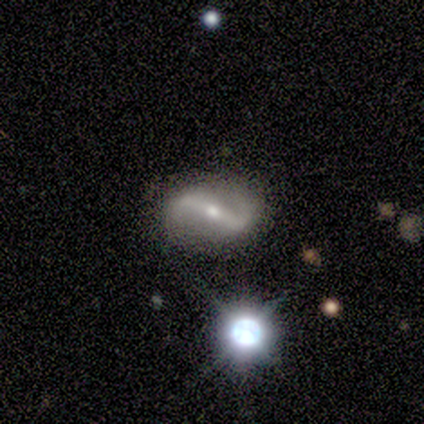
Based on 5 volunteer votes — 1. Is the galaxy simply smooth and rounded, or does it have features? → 100% featured or disk, 0% smooth, 0% star or artifact.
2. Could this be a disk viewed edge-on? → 100% no, 0% yes.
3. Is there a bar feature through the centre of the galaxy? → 100% strong, 0% weak, 0% no.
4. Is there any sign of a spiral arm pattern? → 100% yes, 0% no.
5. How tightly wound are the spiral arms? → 80% loose, 20% medium, 0% tight.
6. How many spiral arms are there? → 100% 2, 0% 1, 0% 3, 0% 4, 0% more than 4, 0% can't tell.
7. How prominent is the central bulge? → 60% moderate, 40% small, 0% dominant, 0% large, 0% none.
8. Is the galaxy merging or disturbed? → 100% none, 0% minor disturbance, 0% major disturbance, 0% merger.